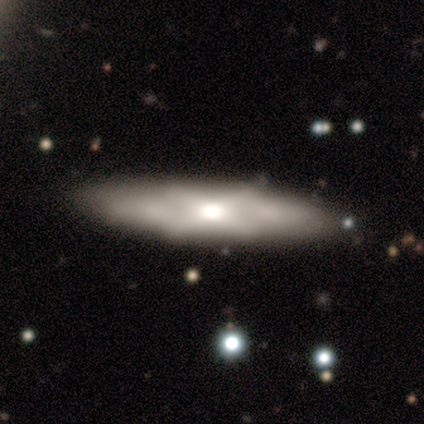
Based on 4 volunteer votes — smooth 50% (tied), featured or disk 50% (tied), star or artifact 0%. Down the decision tree: how rounded — in between (50%, tied with cigar-shaped); merging — none (75%).